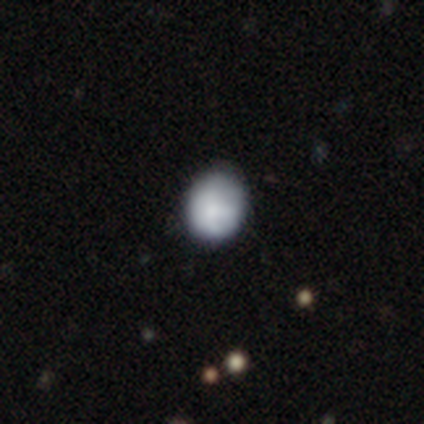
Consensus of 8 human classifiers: Smooth or featured: smooth — 75% (star or artifact — 25%)
How rounded: round — 67% (in between — 33%)
Merging: none — 100%